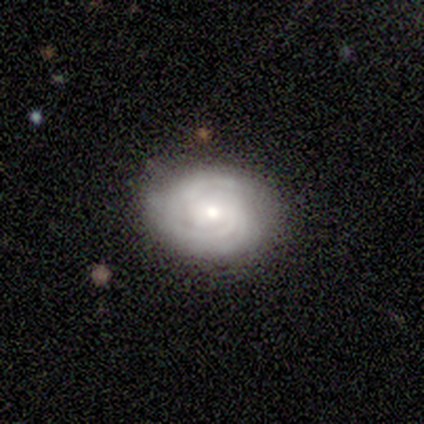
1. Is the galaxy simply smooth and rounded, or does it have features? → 100% featured or disk, 0% smooth, 0% star or artifact.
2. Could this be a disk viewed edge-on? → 100% no, 0% yes.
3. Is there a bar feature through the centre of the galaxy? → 60% weak, 20% strong, 20% no.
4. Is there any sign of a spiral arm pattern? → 80% yes, 20% no.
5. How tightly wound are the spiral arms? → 50% medium, 25% tight, 25% loose.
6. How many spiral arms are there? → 50% can't tell, 25% 2, 25% 4, 0% 1, 0% 3, 0% more than 4.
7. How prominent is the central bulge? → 40% moderate (tied), 40% small (tied), 20% large, 0% dominant, 0% none.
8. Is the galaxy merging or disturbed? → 80% none, 20% major disturbance, 0% minor disturbance, 0% merger.